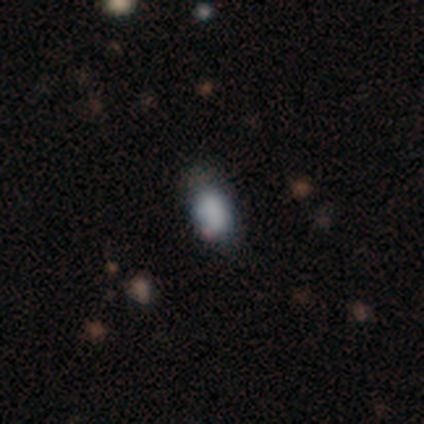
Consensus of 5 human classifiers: A smooth galaxy with no disk features (100%) that is in between round and cigar-shaped (80%). Merging: none (60%).